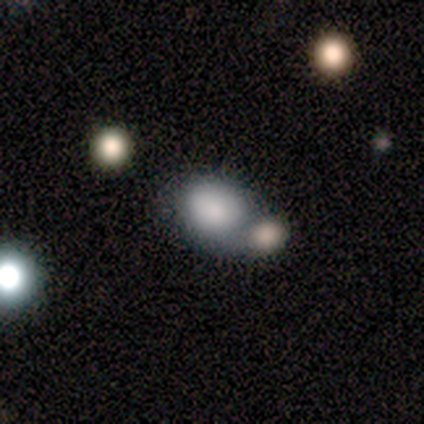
Smooth or featured? 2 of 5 (40%, tied with featured or disk) said smooth. How rounded? 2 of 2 (100%) said round. Merging? 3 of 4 (75%) said merger.